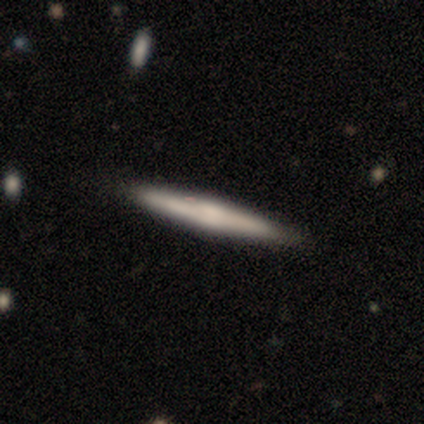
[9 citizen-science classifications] smooth-or-featured: smooth: 67% | featured or disk: 33% | star or artifact: 0%
  how-rounded: cigar-shaped: 100% | round: 0% | in between: 0%
  merging: none: 89% | minor disturbance: 11% | major disturbance: 0% | merger: 0%